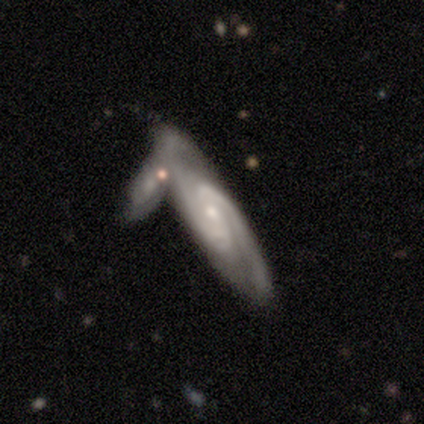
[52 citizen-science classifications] Smooth or featured? 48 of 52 (92%) said featured or disk. Edge-on disk? 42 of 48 (88%) said no. Bar? 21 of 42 (50%) said no. Spiral arms? 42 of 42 (100%) said yes. Spiral winding? 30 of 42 (71%) said medium. Spiral arm count? 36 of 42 (86%) said 2. Bulge size? 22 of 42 (52%) said small. Merging? 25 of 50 (50%) said merger.